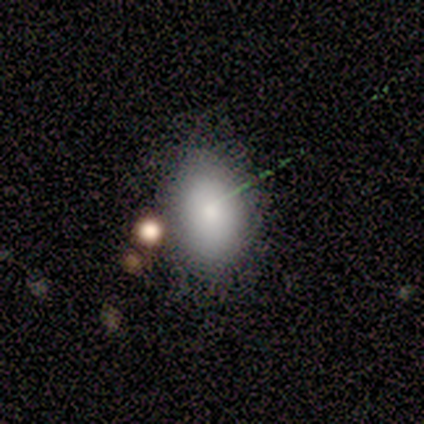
smooth 40% (tied), featured or disk 40% (tied), star or artifact 20%. Down the decision tree: how rounded — round (50%, tied with in between); merging — none (75%).